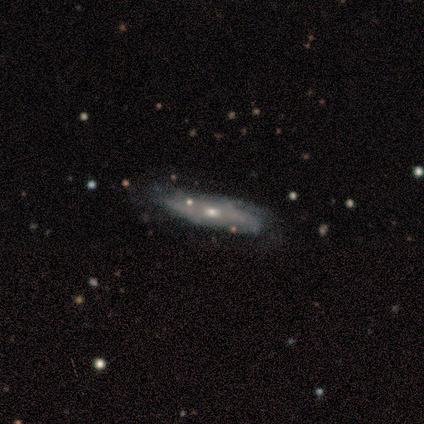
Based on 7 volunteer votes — This appears to be a featured or disk galaxy (86%) with no bar (75%), tight (100%) spiral arms (75%) and a moderate central bulge (50%, tied with small). Merging: none (71%).